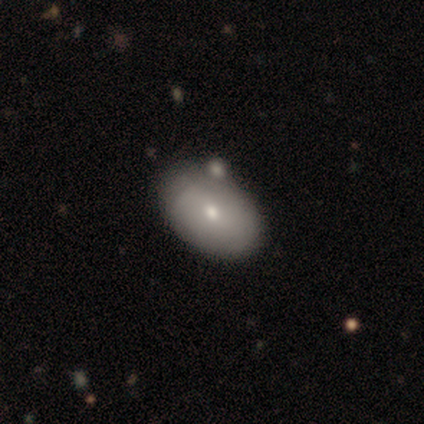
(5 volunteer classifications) A smooth galaxy with no disk features (40%, tied with featured or disk) that is in between round and cigar-shaped (100%). Merging: none (75%).